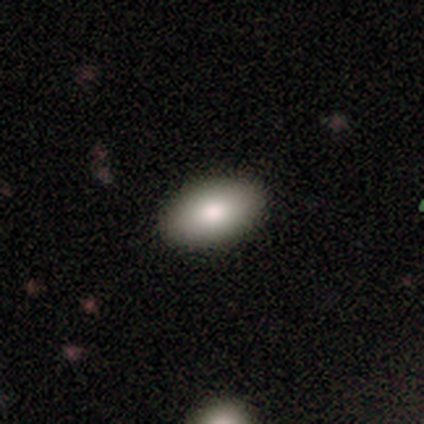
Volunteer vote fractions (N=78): A smooth galaxy with no disk features (87%) that is in between round and cigar-shaped (99%). Merging: none (89%).